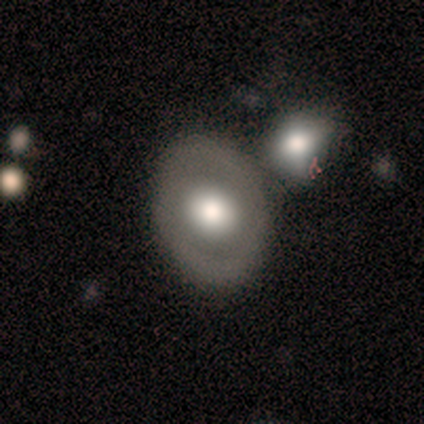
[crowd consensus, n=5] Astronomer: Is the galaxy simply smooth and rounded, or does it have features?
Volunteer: smooth — 60% (runner-up: featured or disk, 40%).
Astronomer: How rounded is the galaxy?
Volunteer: in between — 67%.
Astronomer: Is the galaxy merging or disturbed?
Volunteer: none — 80%.